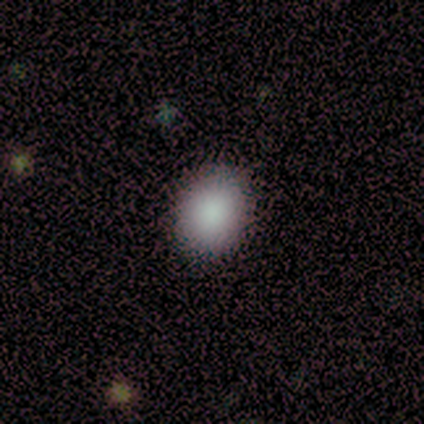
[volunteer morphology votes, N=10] smooth 90%, star or artifact 10%, featured or disk 0%. Down the decision tree: how rounded — in between (78%); merging — none (100%).